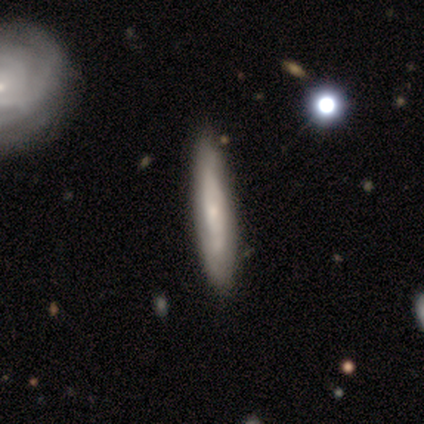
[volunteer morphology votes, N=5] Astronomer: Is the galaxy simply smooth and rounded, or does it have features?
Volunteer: smooth — 80%.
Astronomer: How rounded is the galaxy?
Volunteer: cigar-shaped — 100%.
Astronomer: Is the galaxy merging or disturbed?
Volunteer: none — 60% (runner-up: minor disturbance, 40%).